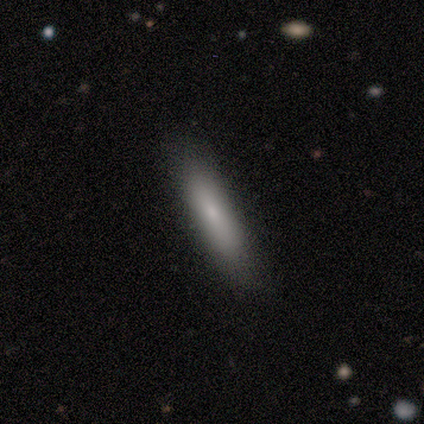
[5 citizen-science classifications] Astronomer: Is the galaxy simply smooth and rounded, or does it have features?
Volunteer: smooth — 100%.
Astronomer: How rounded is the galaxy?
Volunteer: cigar-shaped — 60% (runner-up: in between, 40%).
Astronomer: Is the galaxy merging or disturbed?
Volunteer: none — 100%.